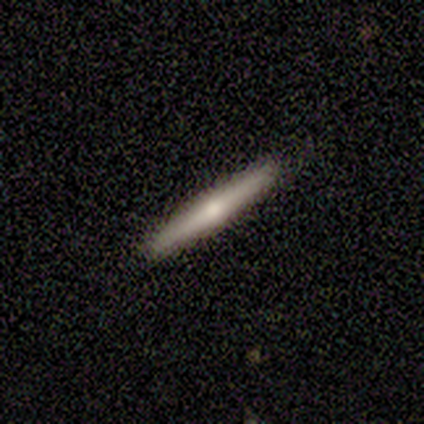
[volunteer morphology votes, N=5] Smooth or featured?
  - smooth: 80% *
  - featured or disk: 20%
  - star or artifact: 0%
How rounded?
  - cigar-shaped: 100% *
  - round: 0%
  - in between: 0%
Merging?
  - none: 100% *
  - minor disturbance: 0%
  - major disturbance: 0%
  - merger: 0%